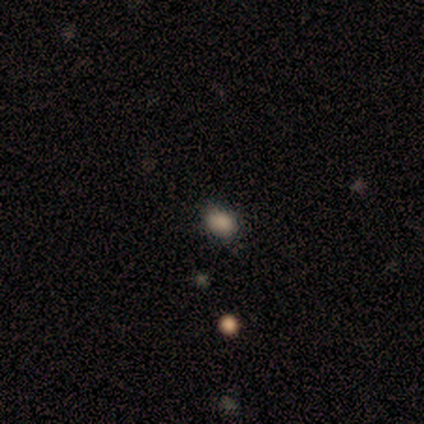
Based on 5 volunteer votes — Q: Smooth or featured?
A: smooth (80%); runner-up: star or artifact (20%)
Q: How rounded?
A: in between (100%)
Q: Merging?
A: none (75%); runner-up: minor disturbance (25%)